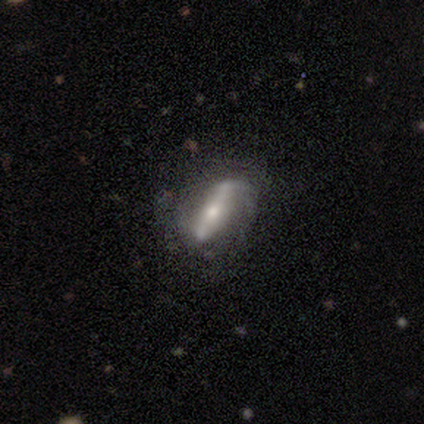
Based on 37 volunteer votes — smooth_or_featured: featured or disk (p=0.81) [alt: smooth p=0.16]
disk_edge_on: no (p=0.80) [alt: yes p=0.20]
bar: strong (p=0.67) [alt: weak p=0.17]
has_spiral_arms: yes (p=0.67) [alt: no p=0.33]
spiral_winding: medium (p=0.56) [alt: tight p=0.25]
spiral_arm_count: 2 (p=0.69) [alt: 1 p=0.12]
bulge_size: moderate (p=0.54) [alt: small p=0.29]
merging: none (p=0.67) [alt: minor disturbance p=0.17]